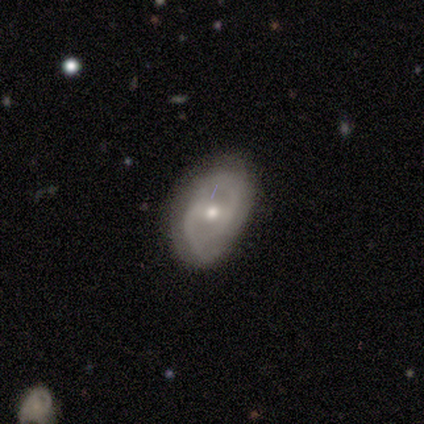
Q: Smooth or featured?
A: featured or disk (100%)
Q: Edge-on disk?
A: no (100%)
Q: Bar?
A: strong (40%); tied with: weak (40%)
Q: Spiral arms?
A: yes (100%)
Q: Spiral winding?
A: medium (60%); runner-up: tight (20%)
Q: Spiral arm count?
A: 2 (80%); runner-up: 1 (20%)
Q: Bulge size?
A: moderate (80%); runner-up: small (20%)
Q: Merging?
A: none (60%); runner-up: minor disturbance (40%)